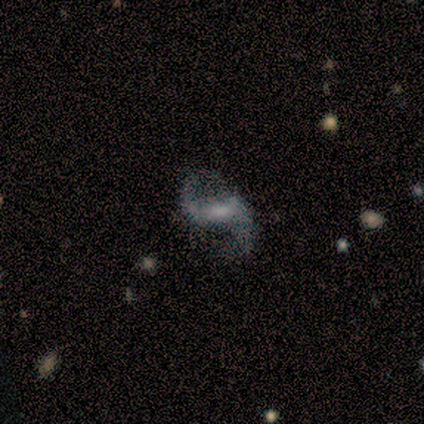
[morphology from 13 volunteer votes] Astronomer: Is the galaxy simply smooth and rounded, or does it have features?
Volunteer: featured or disk — 100%.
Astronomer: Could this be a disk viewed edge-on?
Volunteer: no — 100%.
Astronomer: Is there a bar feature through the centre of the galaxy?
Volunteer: weak — 62%.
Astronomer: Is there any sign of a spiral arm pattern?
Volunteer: yes — 100%.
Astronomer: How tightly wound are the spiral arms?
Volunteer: loose — 77%.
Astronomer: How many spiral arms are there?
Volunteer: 2 — 100%.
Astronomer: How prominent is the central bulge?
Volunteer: small — 54% (runner-up: moderate, 31%).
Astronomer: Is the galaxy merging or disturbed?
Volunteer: none — 69%.